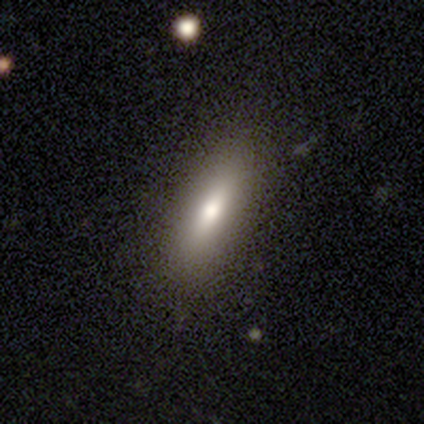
Smooth or featured? smooth (100%)
How rounded? in between (80%)
Merging? none (80%)